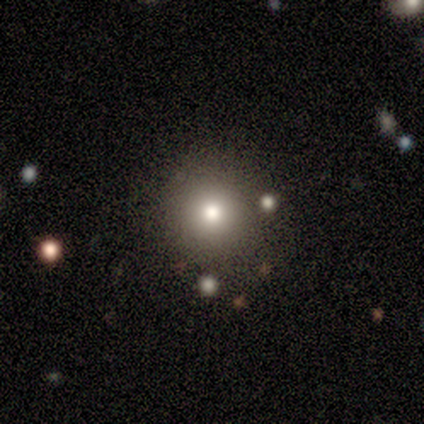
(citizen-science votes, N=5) Smooth or featured? 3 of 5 (60%) said smooth. How rounded? 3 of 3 (100%) said round. Merging? 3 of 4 (75%) said none.